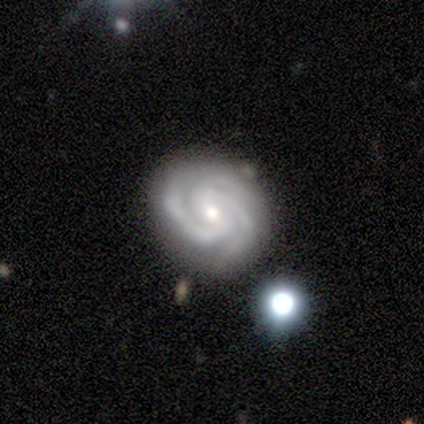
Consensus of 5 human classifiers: Q: Smooth or featured?
A: featured or disk (100%)
Q: Edge-on disk?
A: no (100%)
Q: Bar?
A: weak (80%); runner-up: no (20%)
Q: Spiral arms?
A: yes (100%)
Q: Spiral winding?
A: tight (80%); runner-up: loose (20%)
Q: Spiral arm count?
A: 3 (60%); runner-up: 2 (20%)
Q: Bulge size?
A: moderate (60%); runner-up: small (40%)
Q: Merging?
A: none (60%); runner-up: minor disturbance (40%)